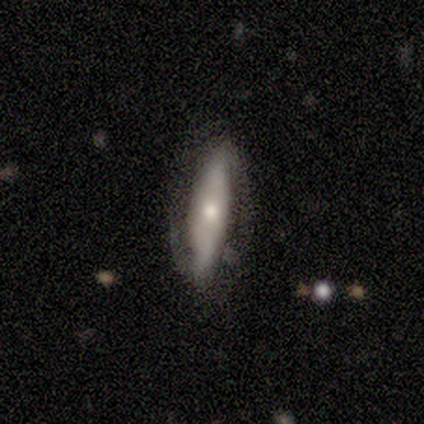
A featured or disk galaxy (60%) with a strong bar (67%), 2 (100%) loose (100%) spiral arms (67%) and a dominant central bulge (33%, tied with moderate and small). Merging: none (80%).